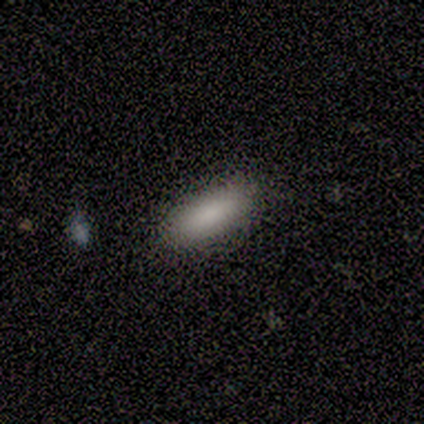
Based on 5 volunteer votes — This is clearly a smooth galaxy (100%). How rounded: clearly in between (80%). Merging: clearly none (100%).